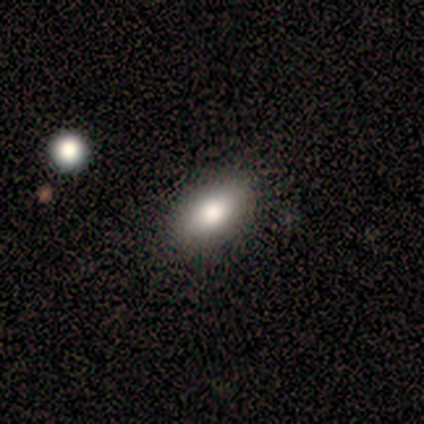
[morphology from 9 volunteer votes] Overall: smooth (56%; featured or disk 22%). How rounded: in between (100%). Merging: none (86%).